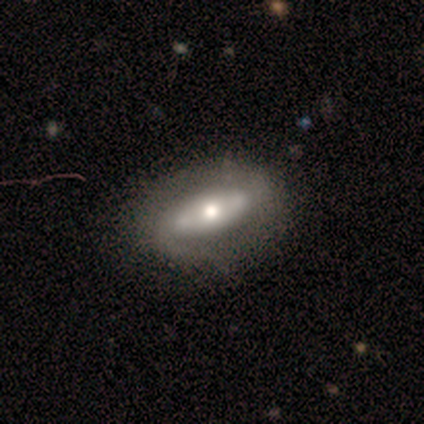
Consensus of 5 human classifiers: smooth-or-featured: featured or disk: 60% | smooth: 20% | star or artifact: 20%
  disk-edge-on: no: 67% | yes: 33%
    bar: strong: 50% (tied) | no: 50% (tied) | weak: 0%
    has-spiral-arms: yes: 50% (tied) | no: 50% (tied)
      spiral-winding: medium: 100% | tight: 0% | loose: 0%
      spiral-arm-count: 2: 100% | 1: 0% | 3: 0% | 4: 0% | more than 4: 0% | can't tell: 0%
    bulge-size: moderate: 50% (tied) | small: 50% (tied) | dominant: 0% | large: 0% | none: 0%
  merging: none: 100% | minor disturbance: 0% | major disturbance: 0% | merger: 0%